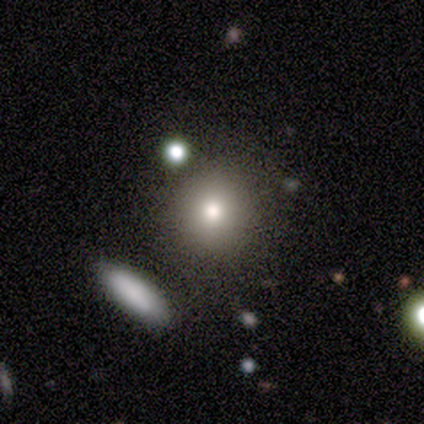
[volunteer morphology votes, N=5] type=smooth (80%); roundness=round (100%); merging=none (100%).